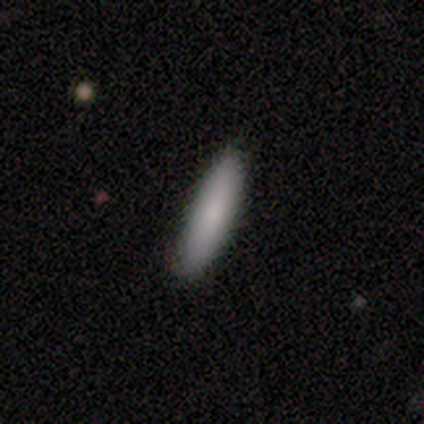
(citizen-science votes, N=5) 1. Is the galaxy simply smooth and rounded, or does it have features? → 80% smooth, 20% featured or disk, 0% star or artifact.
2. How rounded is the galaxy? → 100% cigar-shaped, 0% round, 0% in between.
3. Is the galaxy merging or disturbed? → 100% none, 0% minor disturbance, 0% major disturbance, 0% merger.